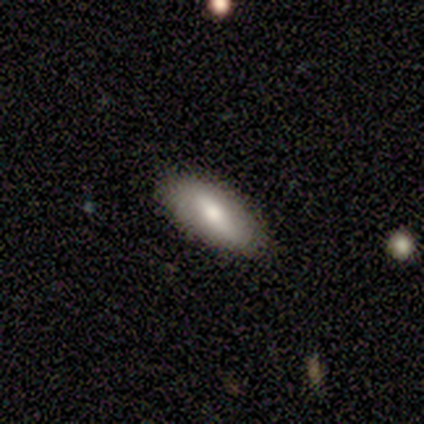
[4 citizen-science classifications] smooth 50% (tied), featured or disk 50% (tied), star or artifact 0%. Down the decision tree: how rounded — in between (50%, tied with cigar-shaped); merging — none (75%).